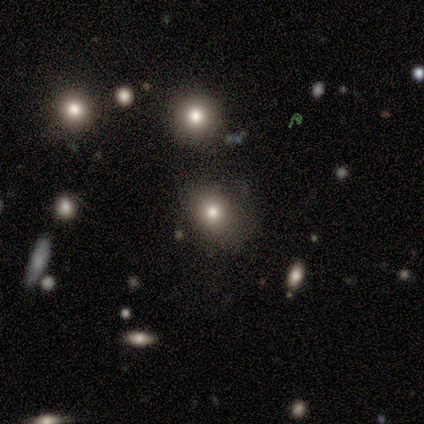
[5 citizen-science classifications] Smooth or featured?
  - smooth: 100% *
  - featured or disk: 0%
  - star or artifact: 0%
How rounded?
  - round: 60% *
  - in between: 40%
  - cigar-shaped: 0%
Merging?
  - none: 60% *
  - minor disturbance: 40%
  - major disturbance: 0%
  - merger: 0%